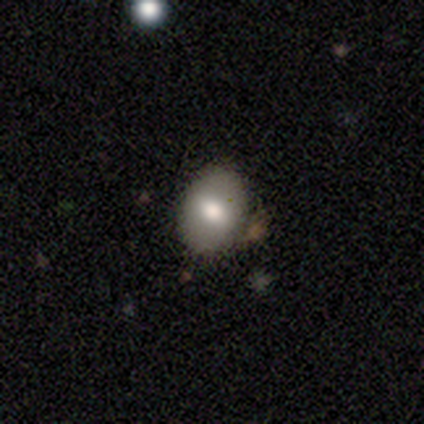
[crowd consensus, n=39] Smooth or featured?
  - smooth: 77% *
  - featured or disk: 21%
  - star or artifact: 3%
How rounded?
  - in between: 87% *
  - round: 13%
  - cigar-shaped: 0%
Merging?
  - none: 89% *
  - minor disturbance: 11%
  - major disturbance: 0%
  - merger: 0%